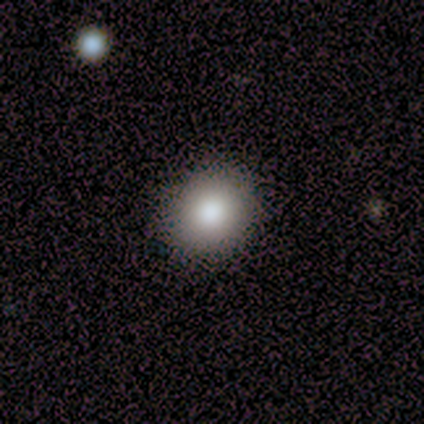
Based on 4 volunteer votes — Volunteers were most divided on "how rounded": in between: 75%, round: 25%, cigar-shaped: 0%. More confident: smooth or featured — smooth (100%); merging — none (100%).